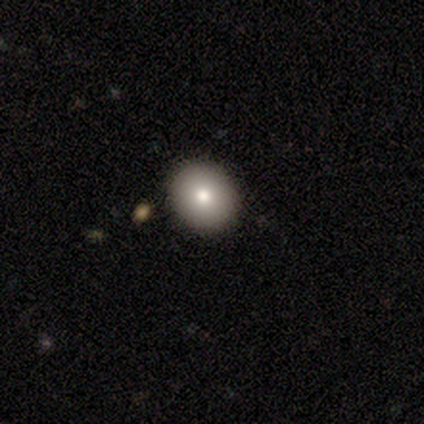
Smooth or featured: smooth — 80% (star or artifact — 20%)
How rounded: round — 75% (in between — 25%)
Merging: none — 75% (minor disturbance — 25%)